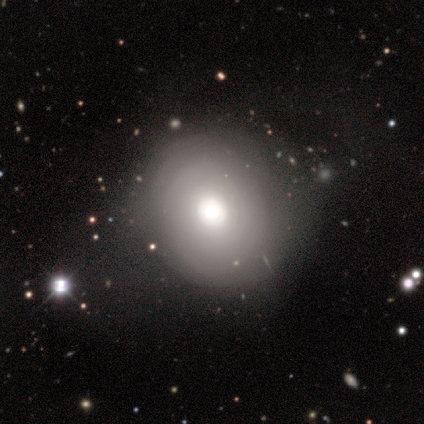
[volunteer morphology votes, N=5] smooth_or_featured: featured or disk (p=0.60) [alt: smooth p=0.40]
disk_edge_on: no (p=1.00)
bar: no (p=1.00)
has_spiral_arms: no (p=1.00)
bulge_size: dominant (p=0.33) [tied with: large p=0.33, moderate p=0.33]
merging: none (p=1.00)